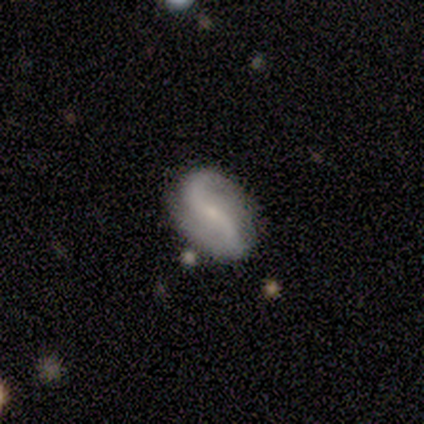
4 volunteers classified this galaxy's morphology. Smooth or featured: featured or disk — 100%
Edge-on disk: no — 100%
Bar: no — 50% (strong — 25%)
Spiral arms: yes — 75% (no — 25%)
Spiral winding: loose — 100%
Spiral arm count: 2 — 100%
Bulge size: small — 100%
Merging: none — 100%